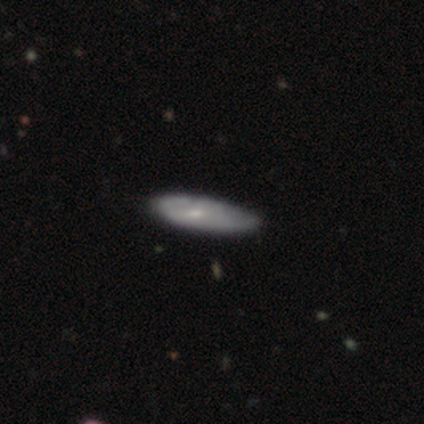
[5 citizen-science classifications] This is likely a smooth galaxy (60%). How rounded: likely cigar-shaped (67%). Merging: likely minor disturbance (75%).